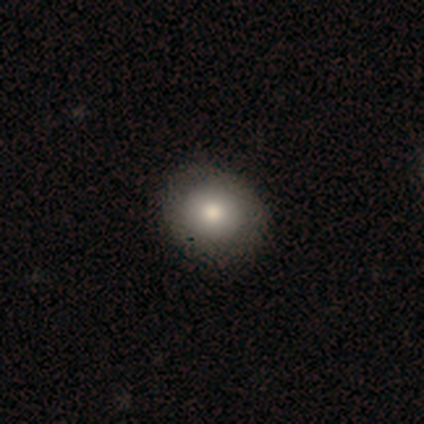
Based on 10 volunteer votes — smooth 80%, featured or disk 20%, star or artifact 0%. Down the decision tree: how rounded — in between (62%); merging — none (80%).